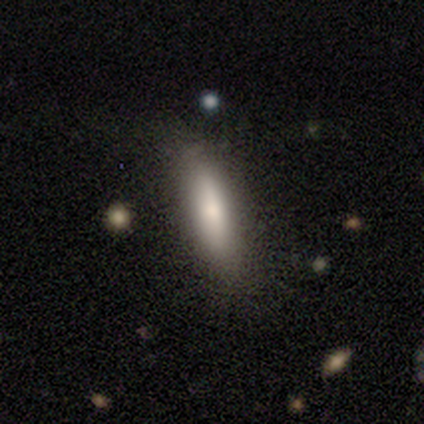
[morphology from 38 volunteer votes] smooth-or-featured: smooth: 84% | featured or disk: 16% | star or artifact: 0%
  how-rounded: in between: 56% | cigar-shaped: 44% | round: 0%
  merging: none: 58% | minor disturbance: 16% | major disturbance: 3% | merger: 0%